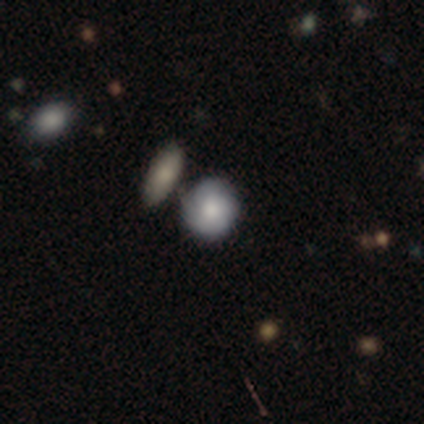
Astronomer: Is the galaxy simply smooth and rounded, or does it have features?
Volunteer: featured or disk — 75%.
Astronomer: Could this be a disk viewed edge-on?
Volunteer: no — 100%.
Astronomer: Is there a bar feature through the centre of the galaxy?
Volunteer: no — 67%.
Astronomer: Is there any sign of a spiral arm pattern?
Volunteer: no — 67%.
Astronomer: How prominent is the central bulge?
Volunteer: large — 33%, tied with moderate and none at 33%.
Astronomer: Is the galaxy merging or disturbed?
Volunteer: none — 25%, tied with minor disturbance, major disturbance and merger at 25%.